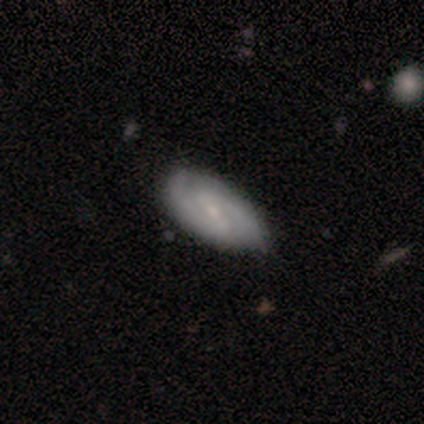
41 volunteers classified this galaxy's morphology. Smooth or featured? featured or disk (73%)
Edge-on disk? no (100%)
Bar? weak (60%)
Spiral arms? yes (97%)
Spiral winding? medium (55%)
Spiral arm count? 2 (97%)
Bulge size? small (70%)
Merging? none (67%)